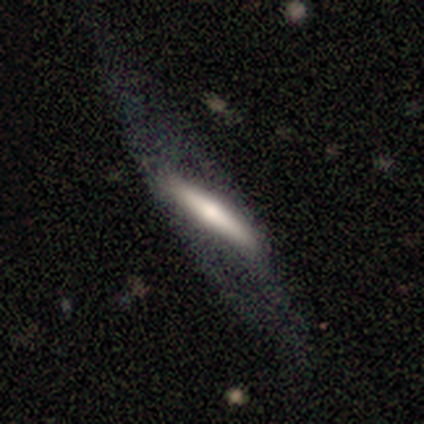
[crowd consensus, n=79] Smooth or featured? 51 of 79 (65%) said featured or disk. Edge-on disk? 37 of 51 (73%) said yes. Edge-on bulge? 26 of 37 (70%) said rounded. Merging? 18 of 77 (23%) said none.